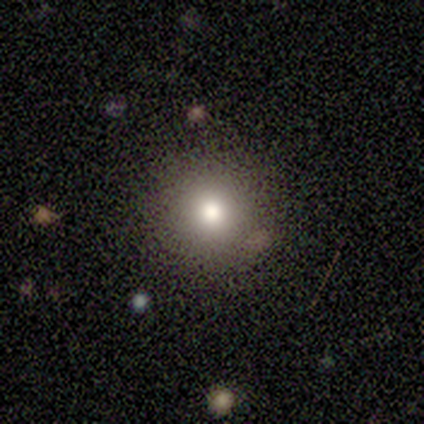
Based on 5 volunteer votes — smooth-or-featured: smooth: 60% | featured or disk: 20% | star or artifact: 20%
  how-rounded: round: 67% | in between: 33% | cigar-shaped: 0%
  merging: none: 100% | minor disturbance: 0% | major disturbance: 0% | merger: 0%